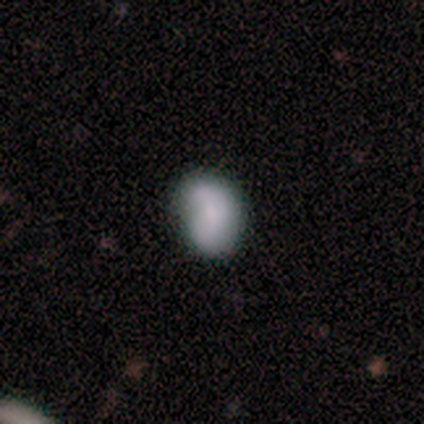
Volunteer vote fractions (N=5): This appears to be a smooth galaxy with no disk features (40%, tied with featured or disk) that is in between round and cigar-shaped (100%). Merging: none (50%).